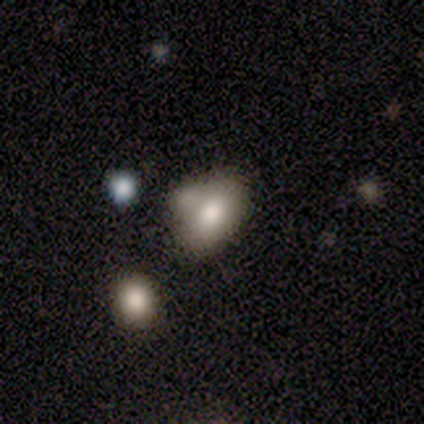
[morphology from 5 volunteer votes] Overall: smooth (60%; featured or disk 40%). How rounded: in between (100%). Merging: merger (60%; none 20%).